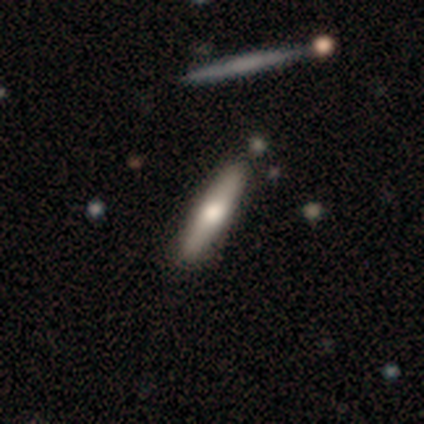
Overall: smooth (67%; star or artifact 33%). How rounded: in between (50%, tied with cigar-shaped). Merging: none (50%, tied with minor disturbance).